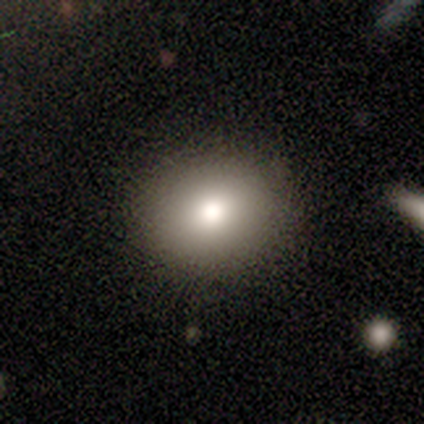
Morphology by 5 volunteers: smooth 80%, featured or disk 20%, star or artifact 0%. Down the decision tree: how rounded — round (100%); merging — none (100%).